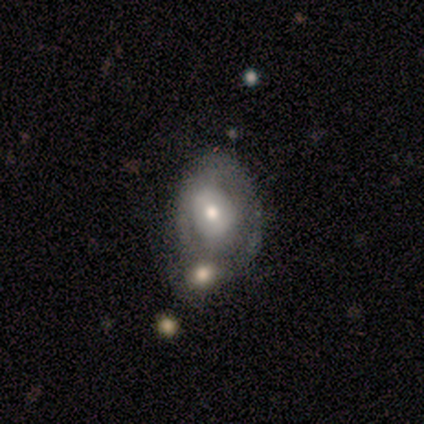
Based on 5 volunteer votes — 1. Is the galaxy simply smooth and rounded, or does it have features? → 60% featured or disk, 40% smooth, 0% star or artifact.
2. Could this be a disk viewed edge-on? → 100% no, 0% yes.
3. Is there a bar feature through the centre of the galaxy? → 67% no, 33% weak, 0% strong.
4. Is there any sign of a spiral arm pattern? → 67% no, 33% yes.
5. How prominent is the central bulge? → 100% moderate, 0% dominant, 0% large, 0% small, 0% none.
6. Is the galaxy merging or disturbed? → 40% none (tied), 40% minor disturbance (tied), 20% merger, 0% major disturbance.